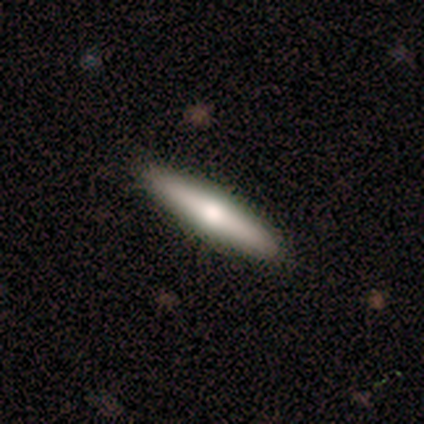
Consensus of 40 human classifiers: smooth_or_featured: smooth (p=0.55) [alt: featured or disk p=0.42]
how_rounded: cigar-shaped (p=0.95) [alt: in between p=0.05]
merging: none (p=0.87) [alt: minor disturbance p=0.13]